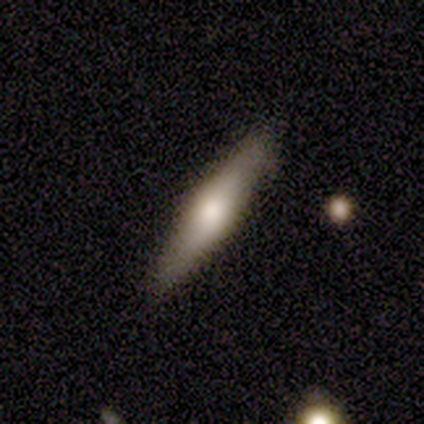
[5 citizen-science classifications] Smooth or featured?
  - featured or disk: 60% *
  - smooth: 40%
  - star or artifact: 0%
Edge-on disk?
  - yes: 100% *
  - no: 0%
Edge-on bulge?
  - rounded: 100% *
  - boxy: 0%
  - none: 0%
Merging?
  - none: 80% *
  - minor disturbance: 20%
  - major disturbance: 0%
  - merger: 0%